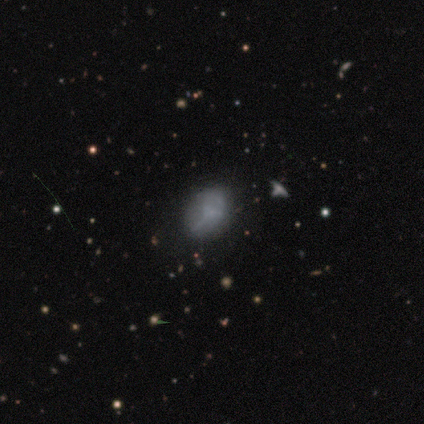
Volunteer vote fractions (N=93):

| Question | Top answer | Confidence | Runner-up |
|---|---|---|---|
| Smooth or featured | smooth | 54% | featured or disk (27%) |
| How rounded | in between | 78% | round (20%) |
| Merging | none | 53% | minor disturbance (31%) |